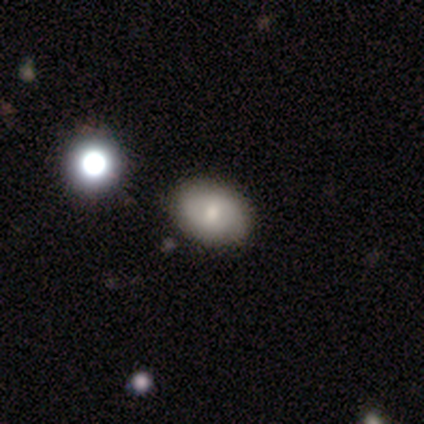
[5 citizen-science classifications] smooth-or-featured: smooth: 60% | featured or disk: 40% | star or artifact: 0%
  how-rounded: in between: 100% | round: 0% | cigar-shaped: 0%
  merging: none: 100% | minor disturbance: 0% | major disturbance: 0% | merger: 0%